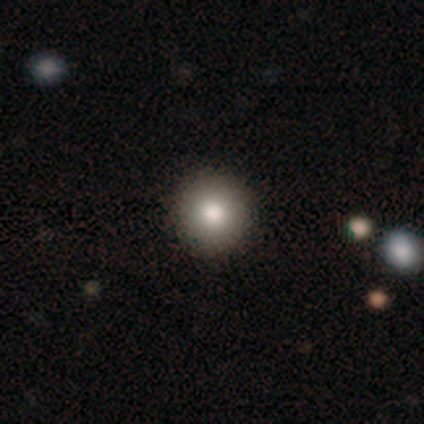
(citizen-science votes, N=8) This appears to be a smooth galaxy with no disk features (100%) that is round (100%). Merging: none (88%).